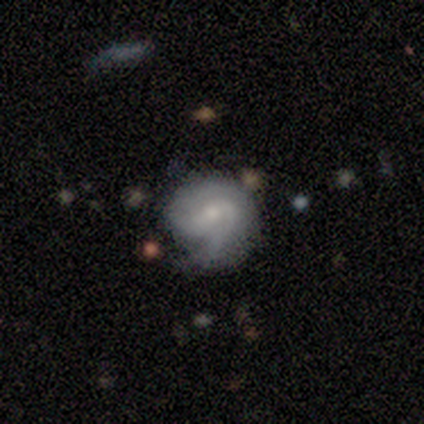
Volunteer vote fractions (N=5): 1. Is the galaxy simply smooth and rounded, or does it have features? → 80% featured or disk, 20% smooth, 0% star or artifact.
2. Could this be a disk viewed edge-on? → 100% no, 0% yes.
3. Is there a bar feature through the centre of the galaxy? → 50% strong, 25% weak, 25% no.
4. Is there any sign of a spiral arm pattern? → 100% yes, 0% no.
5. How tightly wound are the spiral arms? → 50% medium, 25% tight, 25% loose.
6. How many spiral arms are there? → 100% 2, 0% 1, 0% 3, 0% 4, 0% more than 4, 0% can't tell.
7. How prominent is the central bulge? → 50% moderate, 25% small, 25% none, 0% dominant, 0% large.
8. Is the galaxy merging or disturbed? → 60% major disturbance, 40% minor disturbance, 0% none, 0% merger.